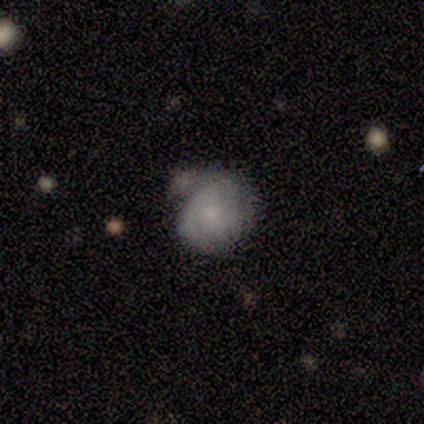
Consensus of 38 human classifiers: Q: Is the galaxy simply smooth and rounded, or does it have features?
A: featured or disk — 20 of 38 (53%).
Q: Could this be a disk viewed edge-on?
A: no — 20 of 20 (100%).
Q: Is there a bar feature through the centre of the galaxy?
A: no — 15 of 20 (75%).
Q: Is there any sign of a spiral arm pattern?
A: yes — 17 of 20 (85%).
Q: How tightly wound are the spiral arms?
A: tight — 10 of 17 (59%).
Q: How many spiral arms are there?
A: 2 — 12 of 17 (71%).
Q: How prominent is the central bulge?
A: small — 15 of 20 (75%).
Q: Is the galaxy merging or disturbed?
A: none — 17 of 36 (47%).